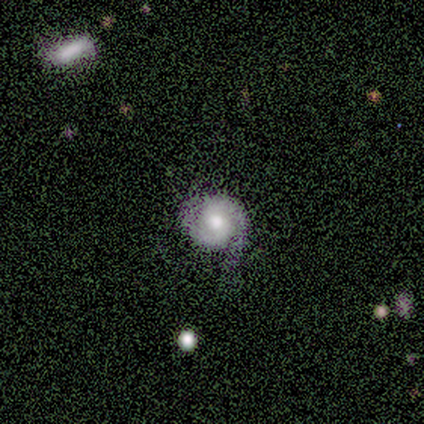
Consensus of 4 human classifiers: Smooth or featured? featured or disk (75%)
Edge-on disk? no (100%)
Bar? no (100%)
Spiral arms? yes (100%)
Spiral winding? medium (100%)
Spiral arm count? 2 (100%)
Bulge size? moderate (67%)
Merging? none (50%, tied with minor disturbance)